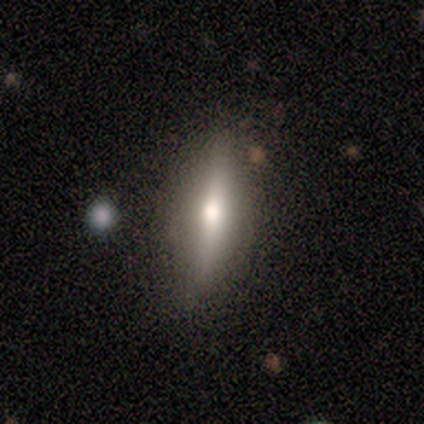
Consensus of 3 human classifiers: Volunteers were most divided on "smooth or featured": featured or disk: 67%, smooth: 33%, star or artifact: 0%. More confident: edge-on disk — yes (100%); edge-on bulge — rounded (100%); merging — none (100%).